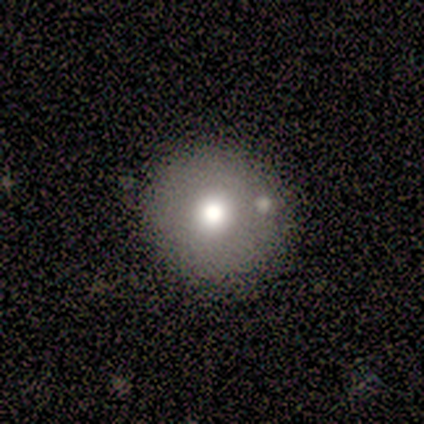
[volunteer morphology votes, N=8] Smooth or featured: smooth — 100%
How rounded: round — 100%
Merging: none — 75% (minor disturbance — 12%)